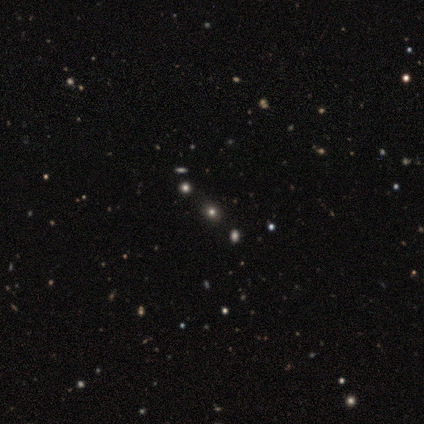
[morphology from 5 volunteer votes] Smooth or featured?
  - star or artifact: 60% *
  - smooth: 40%
  - featured or disk: 0%